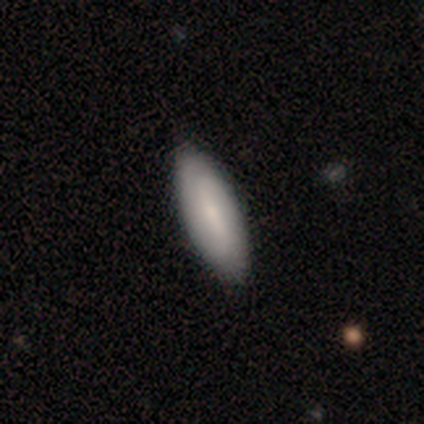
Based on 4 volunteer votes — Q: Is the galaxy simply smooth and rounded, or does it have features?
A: smooth — 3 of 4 (75%).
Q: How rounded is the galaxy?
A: in between — 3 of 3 (100%).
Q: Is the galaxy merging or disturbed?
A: none — 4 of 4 (100%).